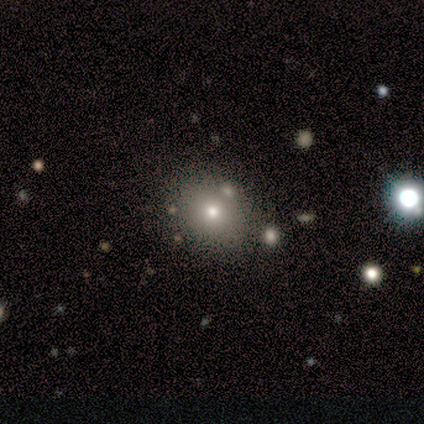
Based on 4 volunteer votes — Morphology: type=smooth (75%); roundness=round (67%); merging=none (100%).